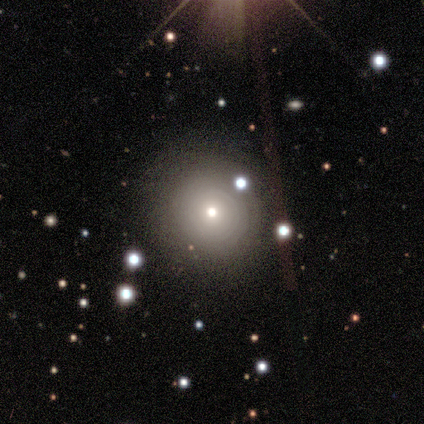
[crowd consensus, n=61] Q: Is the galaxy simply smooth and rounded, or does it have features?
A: smooth — 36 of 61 (59%).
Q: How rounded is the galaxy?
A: round — 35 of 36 (97%).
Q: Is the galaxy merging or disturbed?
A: none — 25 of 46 (54%).